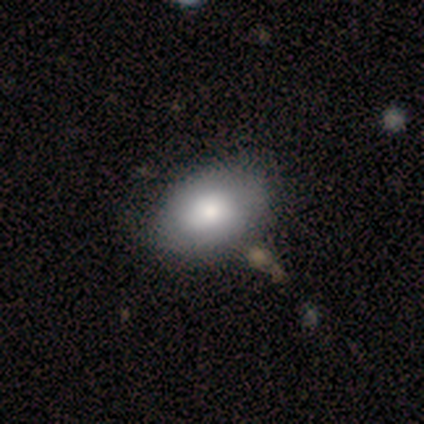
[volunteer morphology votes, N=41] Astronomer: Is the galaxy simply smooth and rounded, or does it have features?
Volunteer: smooth — 80%.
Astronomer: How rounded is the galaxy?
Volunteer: in between — 94%.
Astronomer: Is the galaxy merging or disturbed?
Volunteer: none — 65%.